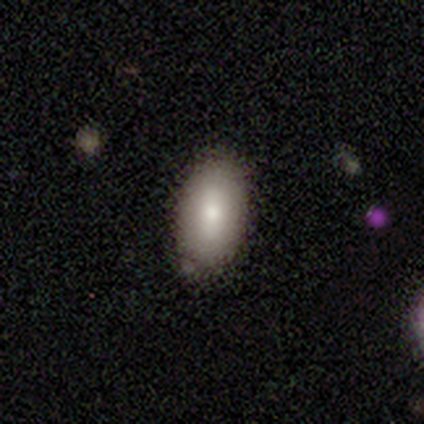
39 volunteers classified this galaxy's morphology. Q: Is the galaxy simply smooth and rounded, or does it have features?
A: smooth — 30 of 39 (77%).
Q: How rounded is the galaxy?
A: in between — 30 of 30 (100%).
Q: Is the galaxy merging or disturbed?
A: none — 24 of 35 (69%).